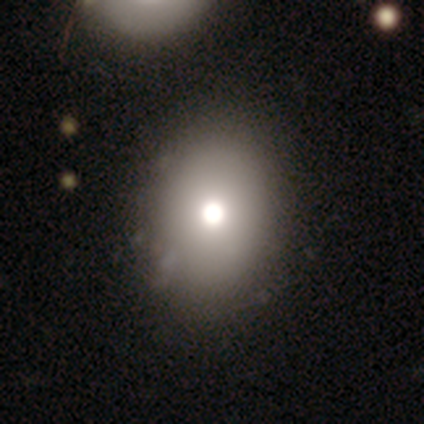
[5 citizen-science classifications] A smooth galaxy with no disk features (80%) that is in between round and cigar-shaped (75%). Merging: none (100%).